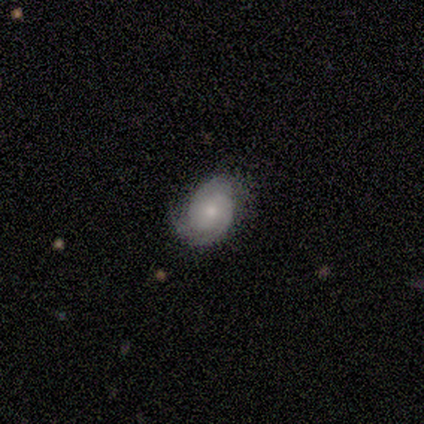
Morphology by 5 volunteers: type=featured or disk (100%); edge-on=no (100%); bar=no (100%); spiral arms=yes (80%); winding=tight (75%); arm count=2 (100%); bulge=small (60%); merging=none (80%).